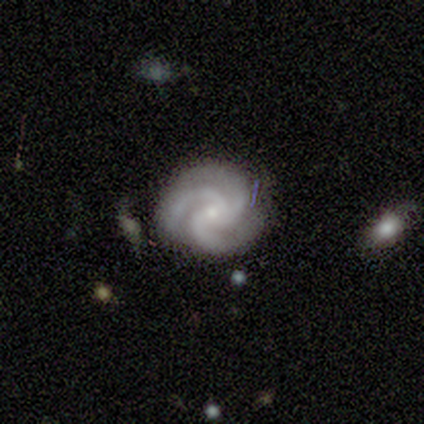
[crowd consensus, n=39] smooth-or-featured: featured or disk: 92% | smooth: 5% | star or artifact: 3%
  disk-edge-on: no: 100% | yes: 0%
    bar: no: 78% | weak: 17% | strong: 6%
    has-spiral-arms: yes: 100% | no: 0%
      spiral-winding: tight: 69% | medium: 28% | loose: 3%
      spiral-arm-count: 3: 92% | 1: 3% | 2: 3% | 4: 3% | more than 4: 0% | can't tell: 0%
    bulge-size: small: 86% | moderate: 11% | none: 3% | dominant: 0% | large: 0%
  merging: none: 82% | minor disturbance: 11% | major disturbance: 5% | merger: 3%